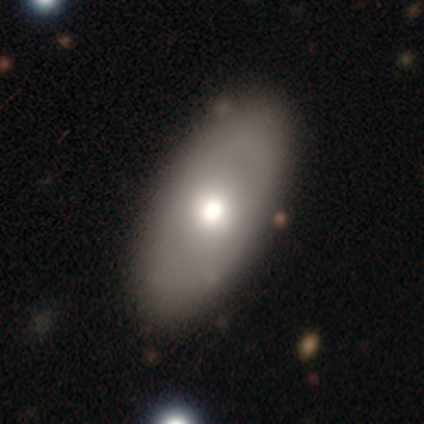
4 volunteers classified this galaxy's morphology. smooth 50%, featured or disk 25%, star or artifact 25%. Down the decision tree: how rounded — in between (100%); merging — none (67%).